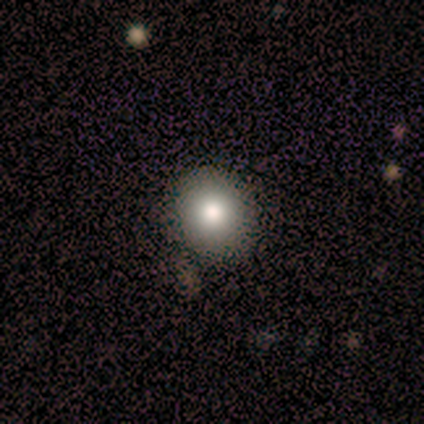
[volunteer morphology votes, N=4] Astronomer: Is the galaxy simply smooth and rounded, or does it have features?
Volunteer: smooth — 75%.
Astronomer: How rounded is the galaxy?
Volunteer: round — 67%.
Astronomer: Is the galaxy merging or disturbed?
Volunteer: none — 100%.